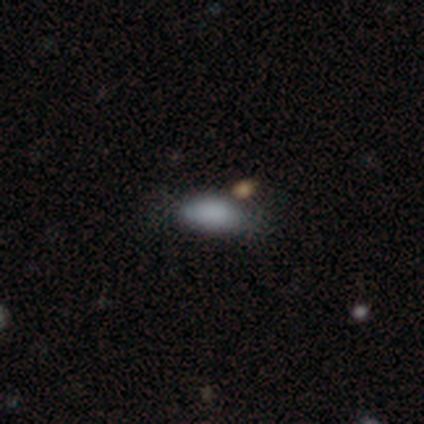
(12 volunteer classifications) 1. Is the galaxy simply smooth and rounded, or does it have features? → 75% smooth, 17% featured or disk, 8% star or artifact.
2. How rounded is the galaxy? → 100% in between, 0% round, 0% cigar-shaped.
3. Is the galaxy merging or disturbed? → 82% none, 18% minor disturbance, 0% major disturbance, 0% merger.